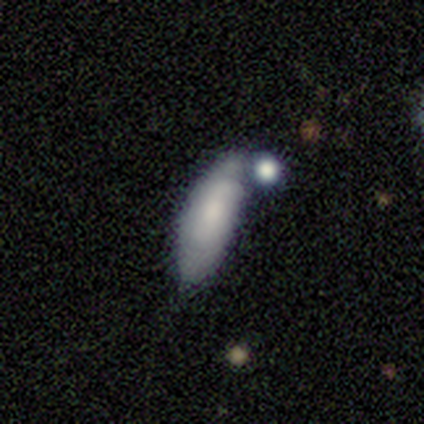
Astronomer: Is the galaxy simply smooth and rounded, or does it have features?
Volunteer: smooth — 51% (runner-up: featured or disk, 44%).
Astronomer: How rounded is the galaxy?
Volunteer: in between — 85%.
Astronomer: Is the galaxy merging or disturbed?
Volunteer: none — 46% (runner-up: minor disturbance, 38%).